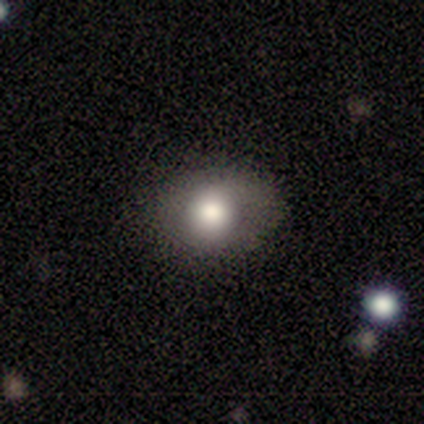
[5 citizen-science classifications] Smooth or featured? smooth (80%)
How rounded? round (50%, tied with in between)
Merging? none (100%)